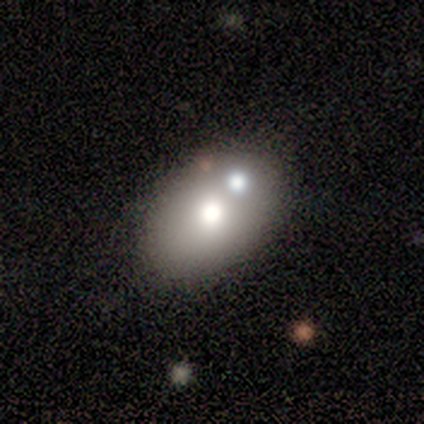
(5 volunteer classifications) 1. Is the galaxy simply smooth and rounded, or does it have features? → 80% smooth, 20% featured or disk, 0% star or artifact.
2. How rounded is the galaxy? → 100% in between, 0% round, 0% cigar-shaped.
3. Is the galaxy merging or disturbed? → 80% none, 20% minor disturbance, 0% major disturbance, 0% merger.